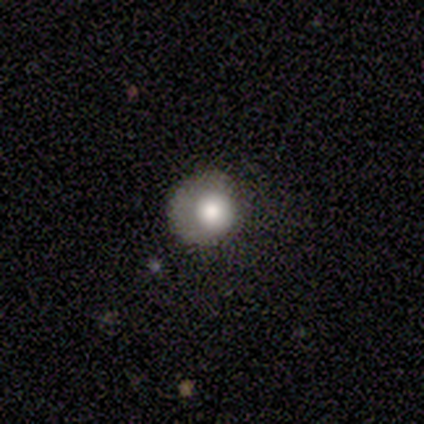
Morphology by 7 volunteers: Smooth or featured?
  - smooth: 86% *
  - featured or disk: 14%
  - star or artifact: 0%
How rounded?
  - round: 83% *
  - in between: 17%
  - cigar-shaped: 0%
Merging?
  - none: 71% *
  - major disturbance: 29%
  - minor disturbance: 0%
  - merger: 0%